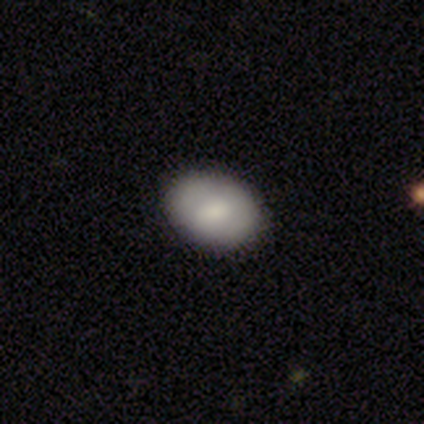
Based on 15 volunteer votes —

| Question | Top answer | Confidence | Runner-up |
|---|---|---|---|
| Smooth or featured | smooth | 73% | featured or disk (13%) |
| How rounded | in between | 91% | round (9%) |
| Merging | none | 85% | minor disturbance (15%) |